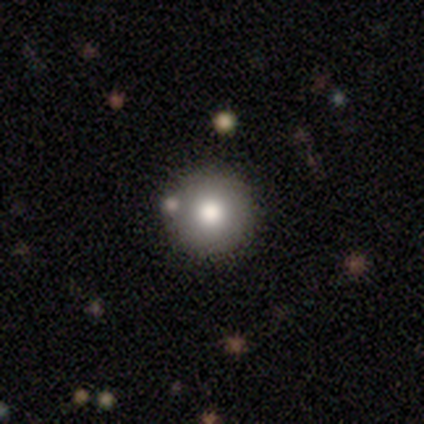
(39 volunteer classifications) Smooth or featured: smooth — 72% (featured or disk — 15%)
How rounded: round — 100%
Merging: none — 88% (minor disturbance — 9%)